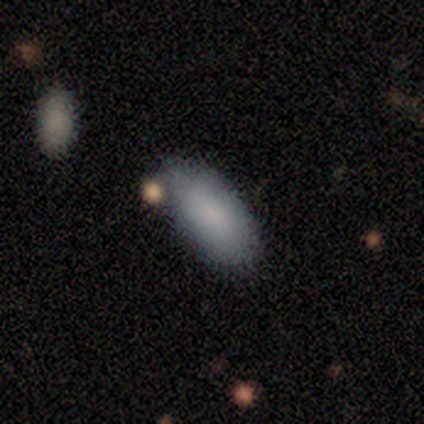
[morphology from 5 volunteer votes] smooth-or-featured: smooth: 100% | featured or disk: 0% | star or artifact: 0%
  how-rounded: in between: 80% | round: 20% | cigar-shaped: 0%
  merging: none: 40% (tied) | major disturbance: 40% (tied) | minor disturbance: 20% | merger: 0%